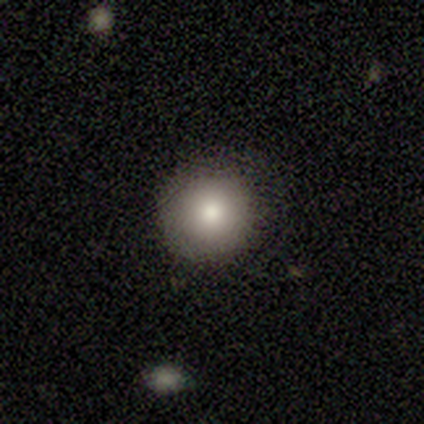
Overall: smooth (100%). How rounded: round (50%, tied with in between). Merging: none (75%).